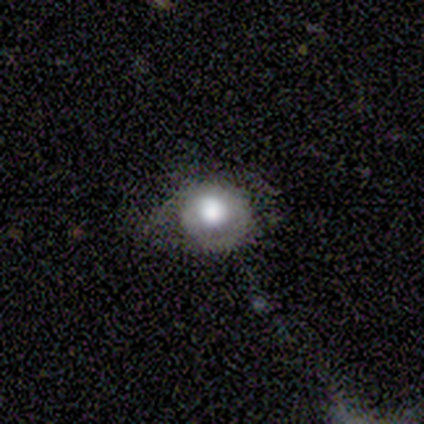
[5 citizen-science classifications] Q: Smooth or featured?
A: smooth (60%); runner-up: featured or disk (40%)
Q: How rounded?
A: round (100%)
Q: Merging?
A: none (40%); tied with: minor disturbance (40%)